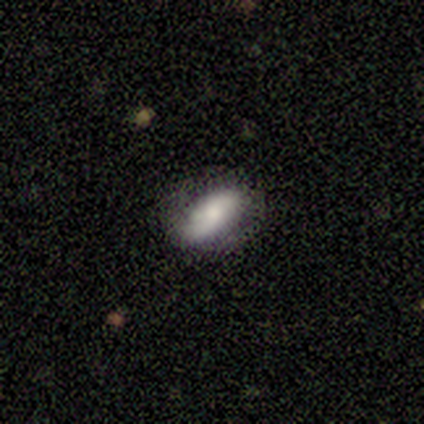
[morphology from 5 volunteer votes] Q: Smooth or featured?
A: smooth (60%); runner-up: featured or disk (20%)
Q: How rounded?
A: in between (100%)
Q: Merging?
A: none (75%); runner-up: minor disturbance (25%)